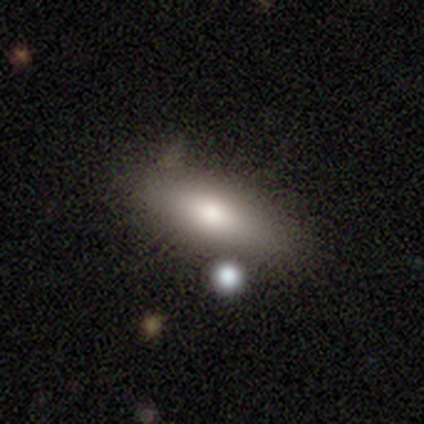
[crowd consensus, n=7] Volunteers were most divided on "how rounded": in between: 67%, cigar-shaped: 33%, round: 0%. More confident: smooth or featured — smooth (86%); merging — none (67%).